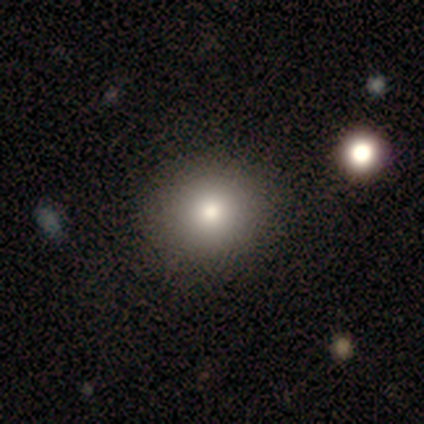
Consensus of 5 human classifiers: This appears to be a smooth galaxy with no disk features (80%) that is round (75%). Merging: none (75%).